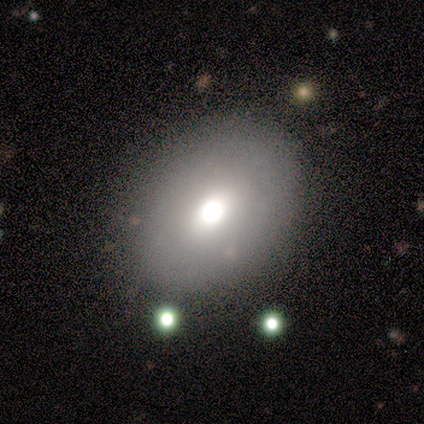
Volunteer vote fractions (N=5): Smooth or featured? smooth (60%)
How rounded? in between (100%)
Merging? none (60%)